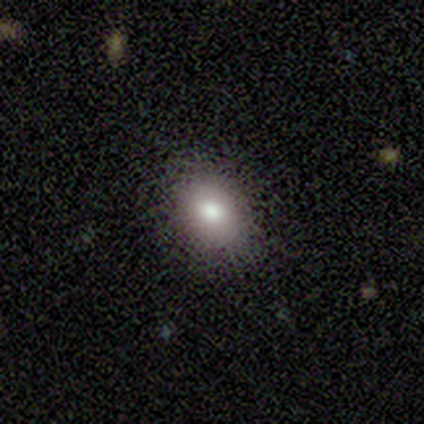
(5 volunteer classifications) This is clearly a smooth galaxy (100%). How rounded: likely in between (60%). Merging: clearly none (100%).